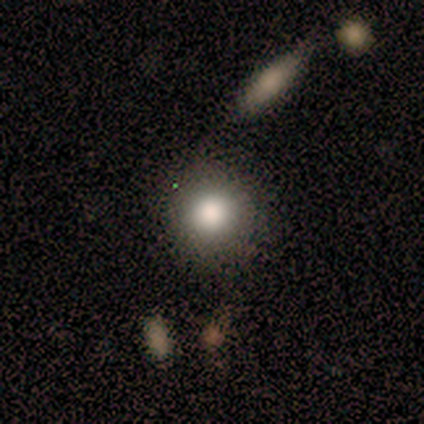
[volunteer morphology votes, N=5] This is likely a smooth galaxy (60%). How rounded: clearly round (100%). Merging: clearly none (100%).